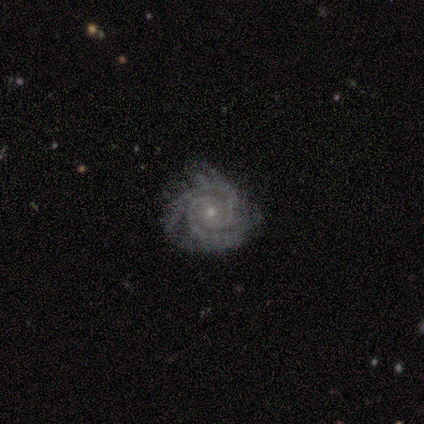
A featured or disk galaxy (100%) with no bar (75%), 2 (50%, tied with 3) tight (75%) spiral arms (100%) and a small central bulge (75%).

Vote fractions:
- Smooth or featured? featured or disk: 100% / smooth: 0% / star or artifact: 0%
- Edge-on disk? no: 100% / yes: 0%
- Bar? no: 75% / weak: 25% / strong: 0%
- Spiral arms? yes: 100% / no: 0%
- Spiral winding? tight: 75% / medium: 25% / loose: 0%
- Spiral arm count? 2: 50% (tied) / 3: 50% (tied) / 1: 0% / 4: 0% / more than 4: 0% / can't tell: 0%
- Bulge size? small: 75% / moderate: 25% / dominant: 0% / large: 0% / none: 0%
- Merging? none: 100% / minor disturbance: 0% / major disturbance: 0% / merger: 0%